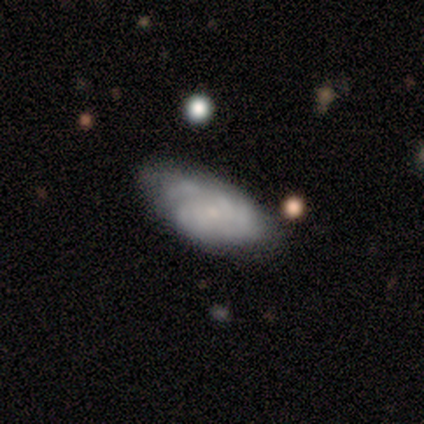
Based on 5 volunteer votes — Smooth or featured? featured or disk (80%)
Edge-on disk? no (100%)
Bar? no (75%)
Spiral arms? yes (100%)
Spiral winding? tight (50%)
Spiral arm count? can't tell (100%)
Bulge size? small (100%)
Merging? none (60%)